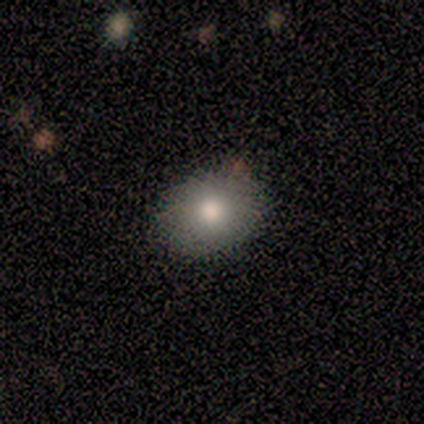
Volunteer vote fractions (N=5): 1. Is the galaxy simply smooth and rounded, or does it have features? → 80% smooth, 20% featured or disk, 0% star or artifact.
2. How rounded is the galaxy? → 75% round, 25% in between, 0% cigar-shaped.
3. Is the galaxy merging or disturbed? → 80% none, 20% minor disturbance, 0% major disturbance, 0% merger.